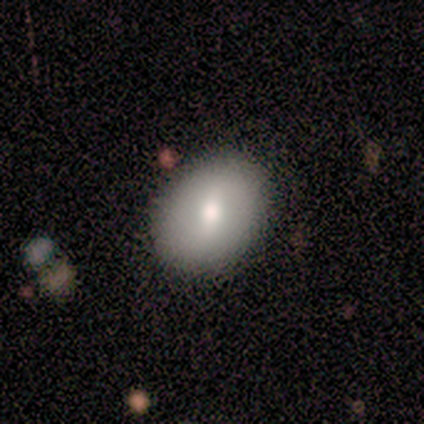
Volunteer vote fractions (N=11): A smooth galaxy with no disk features (73%) that is round (62%).

Vote fractions:
- Smooth or featured? smooth: 73% / featured or disk: 27% / star or artifact: 0%
- How rounded? round: 62% / in between: 38% / cigar-shaped: 0%
- Merging? none: 91% / minor disturbance: 9% / major disturbance: 0% / merger: 0%